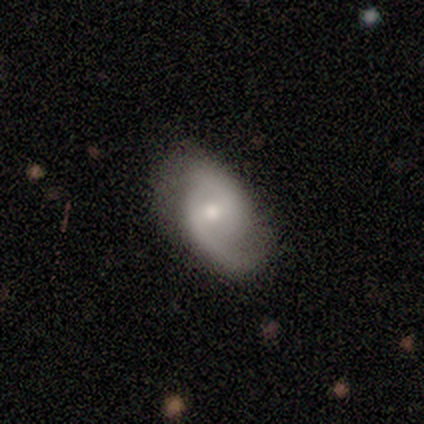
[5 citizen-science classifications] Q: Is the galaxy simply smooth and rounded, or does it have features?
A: featured or disk — 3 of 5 (60%).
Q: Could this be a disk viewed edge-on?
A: no — 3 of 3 (100%).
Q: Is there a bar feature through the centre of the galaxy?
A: weak — 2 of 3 (67%).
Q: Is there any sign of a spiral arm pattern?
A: yes — 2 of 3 (67%).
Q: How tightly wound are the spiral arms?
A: medium — 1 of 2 (50%, tied with loose).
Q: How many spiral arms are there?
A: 2 — 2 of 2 (100%).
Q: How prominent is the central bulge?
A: moderate — 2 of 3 (67%).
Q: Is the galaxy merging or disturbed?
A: none — 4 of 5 (80%).